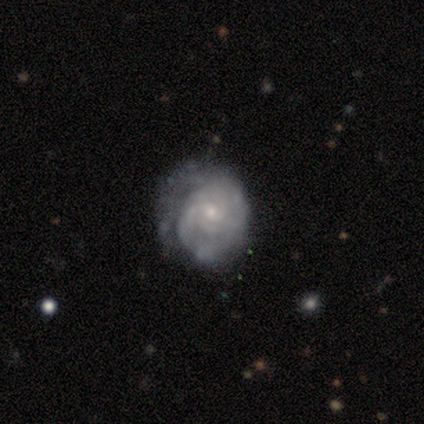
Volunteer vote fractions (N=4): Volunteers were most divided on "spiral arm count" (2-way tie): 2: 50%, can't tell: 50%, 1: 0%, 3: 0%, 4: 0%, more than 4: 0%. More confident: smooth or featured — featured or disk (100%); edge-on disk — no (100%); spiral arms — yes (100%); bulge size — small (100%); bar — no (75%); spiral winding — loose (50%); merging — none (50%).